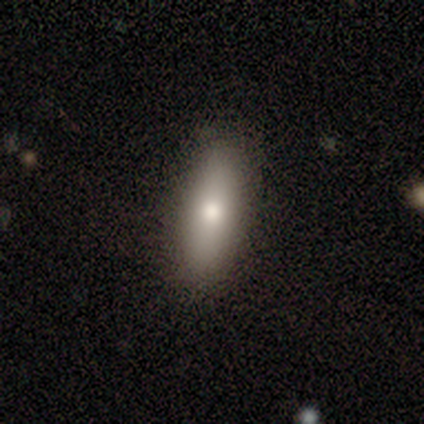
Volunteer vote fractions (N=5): Smooth or featured? 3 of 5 (60%) said smooth. How rounded? 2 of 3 (67%) said in between. Merging? 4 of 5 (80%) said none.